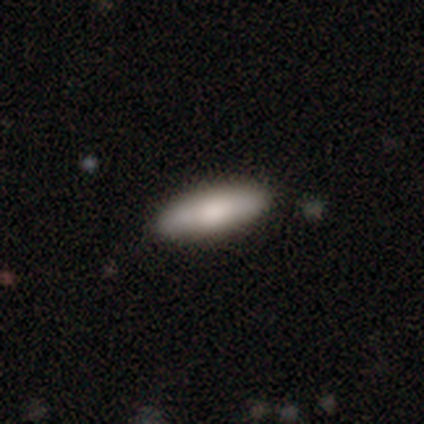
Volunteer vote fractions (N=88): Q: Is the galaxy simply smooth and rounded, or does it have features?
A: smooth — 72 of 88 (82%).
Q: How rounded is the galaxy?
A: cigar-shaped — 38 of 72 (53%).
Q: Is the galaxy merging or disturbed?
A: none — 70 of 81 (86%).